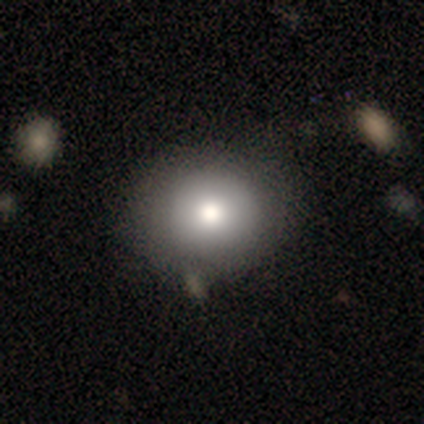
A smooth galaxy with no disk features (76%) that is round (72%).

Vote fractions:
- Smooth or featured? smooth: 76% / featured or disk: 16% / star or artifact: 8%
- How rounded? round: 72% / in between: 28% / cigar-shaped: 0%
- Merging? none: 57% / merger: 11% / minor disturbance: 9% / major disturbance: 0%